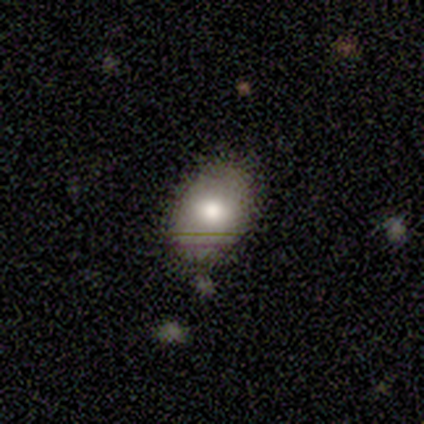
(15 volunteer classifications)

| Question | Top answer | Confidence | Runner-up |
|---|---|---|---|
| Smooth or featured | smooth | 87% | featured or disk (13%) |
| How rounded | in between | 100% | — |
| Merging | none | 73% | minor disturbance (27%) |